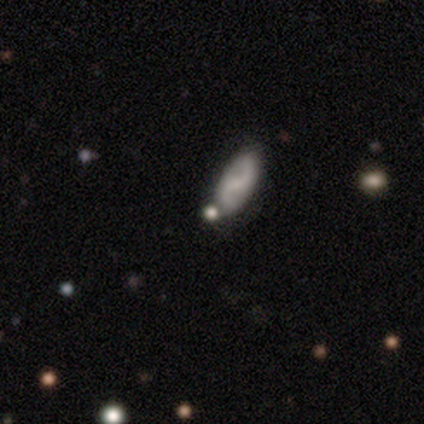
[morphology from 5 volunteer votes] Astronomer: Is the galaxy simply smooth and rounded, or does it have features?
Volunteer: featured or disk — 40%, tied with star or artifact at 40%.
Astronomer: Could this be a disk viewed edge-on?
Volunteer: no — 100%.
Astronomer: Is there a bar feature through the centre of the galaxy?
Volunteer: strong — 100%.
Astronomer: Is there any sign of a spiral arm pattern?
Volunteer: yes — 100%.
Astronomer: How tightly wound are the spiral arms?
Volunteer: loose — 100%.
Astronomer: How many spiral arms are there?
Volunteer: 2 — 100%.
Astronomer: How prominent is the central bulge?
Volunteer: small — 50%, tied with none at 50%.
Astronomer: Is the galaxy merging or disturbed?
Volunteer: none — 67%.